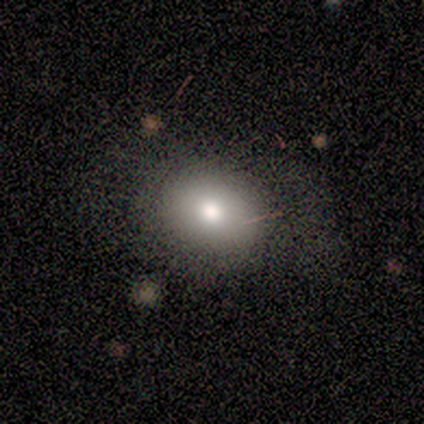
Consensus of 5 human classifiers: Q: Smooth or featured?
A: smooth (100%)
Q: How rounded?
A: in between (60%); runner-up: round (40%)
Q: Merging?
A: none (80%); runner-up: major disturbance (20%)